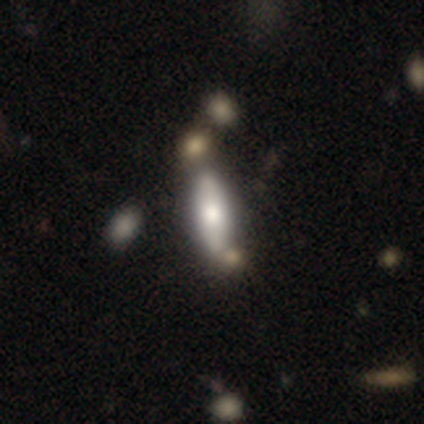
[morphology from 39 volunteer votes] type=featured or disk (54%); edge-on=yes (57%); edge-on bulge=rounded (92%); merging=none (54%).